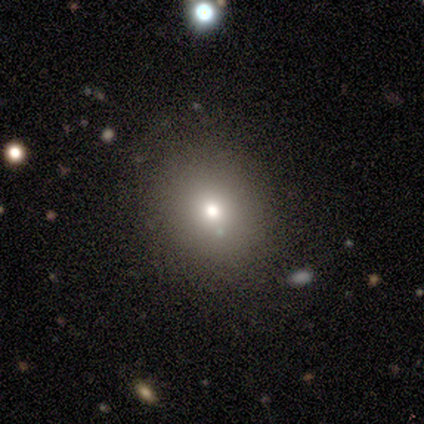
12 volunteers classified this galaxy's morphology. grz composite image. It shows a star or artifact, not a galaxy (50%).